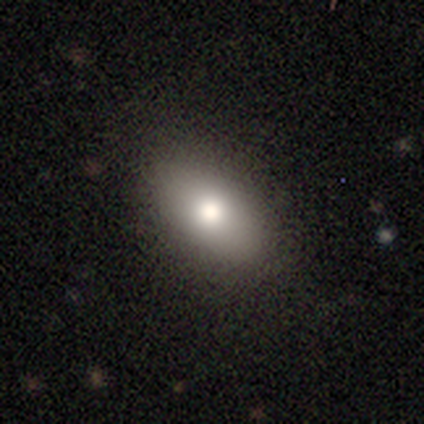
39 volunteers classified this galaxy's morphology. Smooth or featured? 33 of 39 (85%) said smooth. How rounded? 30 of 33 (91%) said in between. Merging? 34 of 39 (87%) said none.